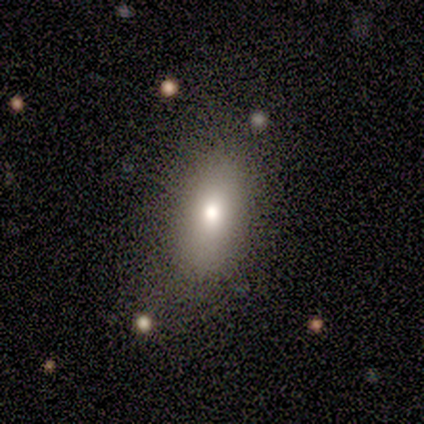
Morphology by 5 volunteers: Smooth or featured? 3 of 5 (60%) said smooth. How rounded? 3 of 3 (100%) said in between. Merging? 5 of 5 (100%) said none.